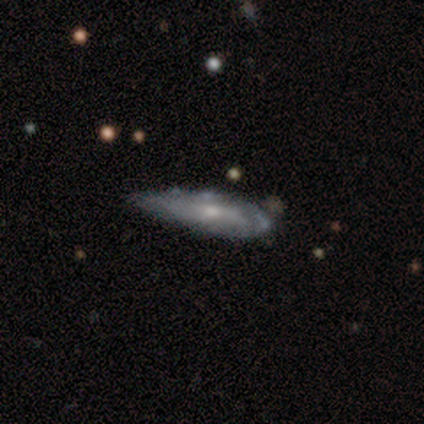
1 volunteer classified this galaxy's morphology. A featured or disk galaxy (100%) with no bar (100%), no spiral arms (100%) and a small central bulge (100%).

Vote fractions:
- Smooth or featured? featured or disk: 100% / smooth: 0% / star or artifact: 0%
- Edge-on disk? no: 100% / yes: 0%
- Bar? no: 100% / strong: 0% / weak: 0%
- Spiral arms? no: 100% / yes: 0%
- Bulge size? small: 100% / dominant: 0% / large: 0% / moderate: 0% / none: 0%
- Merging? minor disturbance: 100% / none: 0% / major disturbance: 0% / merger: 0%